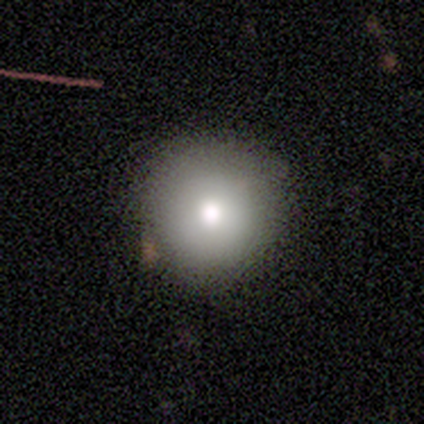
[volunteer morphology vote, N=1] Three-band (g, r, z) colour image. It shows a smooth galaxy with no disk features (100%) that is round (100%). Merging: none (100%).